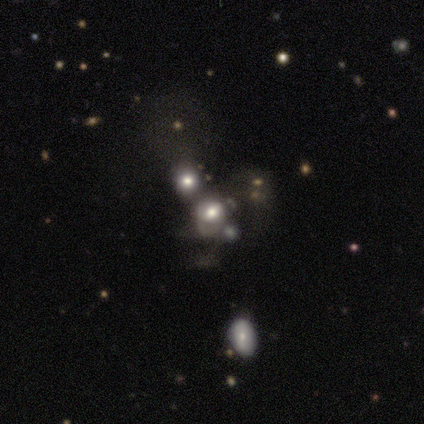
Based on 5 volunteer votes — Smooth or featured?
  - smooth: 60% *
  - featured or disk: 40%
  - star or artifact: 0%
How rounded?
  - round: 67% *
  - in between: 33%
  - cigar-shaped: 0%
Merging?
  - none: 60% *
  - minor disturbance: 20%
  - merger: 20%
  - major disturbance: 0%